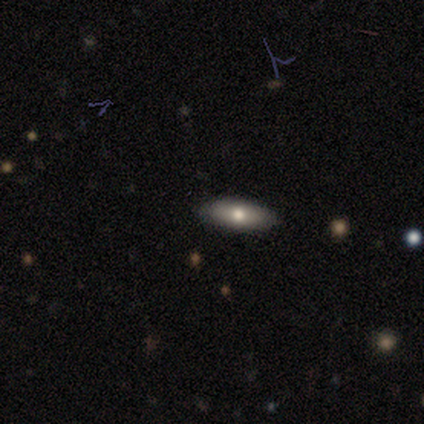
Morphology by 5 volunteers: Smooth or featured? smooth (80%)
How rounded? in between (100%)
Merging? none (100%)